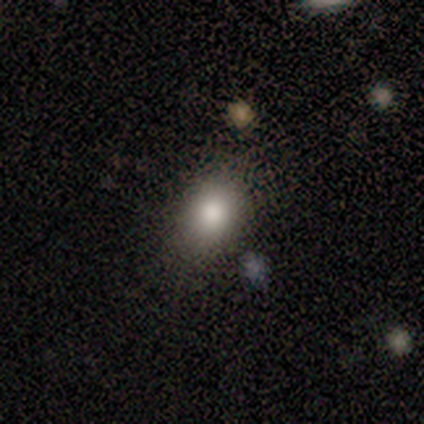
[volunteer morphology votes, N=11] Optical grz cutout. It shows a smooth galaxy with no disk features (73%) that is round (50%, tied with in between). Merging: none (90%).